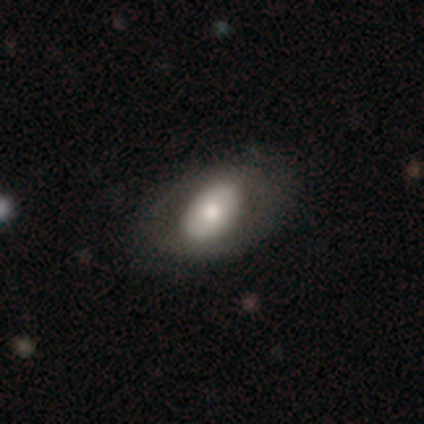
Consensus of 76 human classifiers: This is possibly a smooth galaxy (58%). How rounded: clearly in between (93%). Merging: marginally none (34%).